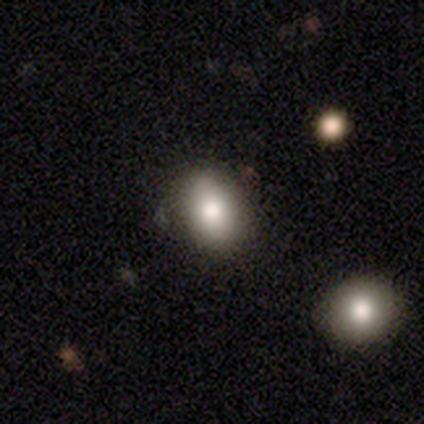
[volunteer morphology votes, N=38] A smooth galaxy with no disk features (82%) that is in between round and cigar-shaped (84%).

Vote fractions:
- Smooth or featured? smooth: 82% / star or artifact: 11% / featured or disk: 8%
- How rounded? in between: 84% / round: 16% / cigar-shaped: 0%
- Merging? none: 62% / merger: 12% / minor disturbance: 3% / major disturbance: 3%